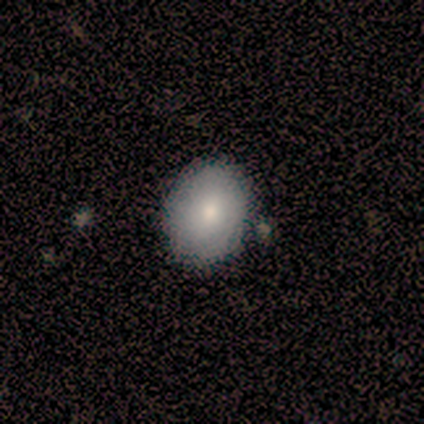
Volunteers were most divided on "how rounded": round: 75%, in between: 25%, cigar-shaped: 0%. More confident: smooth or featured — smooth (80%); merging — none (80%).